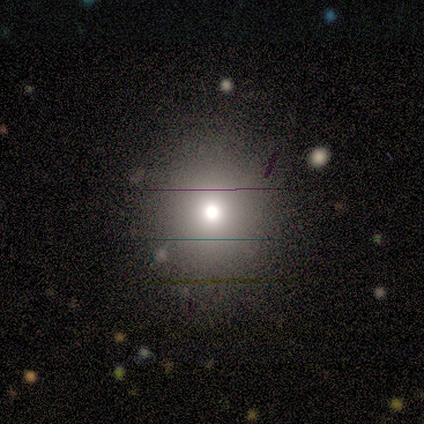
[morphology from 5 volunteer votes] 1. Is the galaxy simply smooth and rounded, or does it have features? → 100% smooth, 0% featured or disk, 0% star or artifact.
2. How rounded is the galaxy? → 60% in between, 40% round, 0% cigar-shaped.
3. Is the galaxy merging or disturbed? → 100% none, 0% minor disturbance, 0% major disturbance, 0% merger.